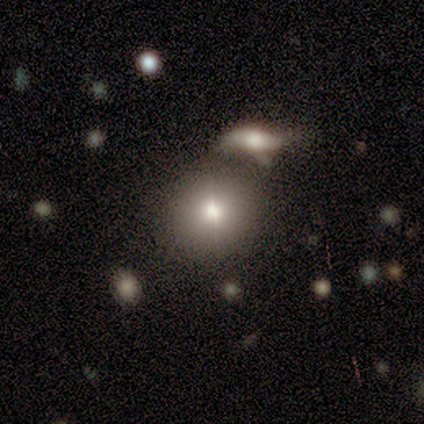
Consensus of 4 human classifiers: A smooth galaxy with no disk features (75%) that is round (100%). Merging: none (67%).